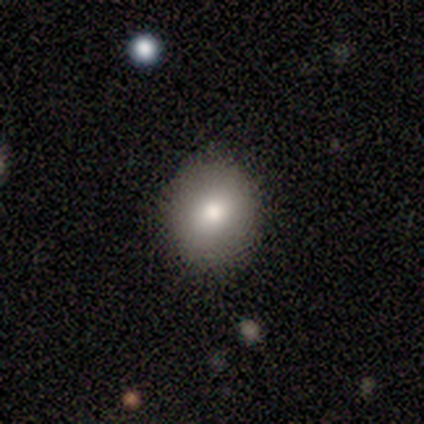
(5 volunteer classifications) smooth_or_featured: smooth (p=0.60) [alt: featured or disk p=0.40]
how_rounded: in between (p=0.67) [alt: round p=0.33]
merging: none (p=1.00)